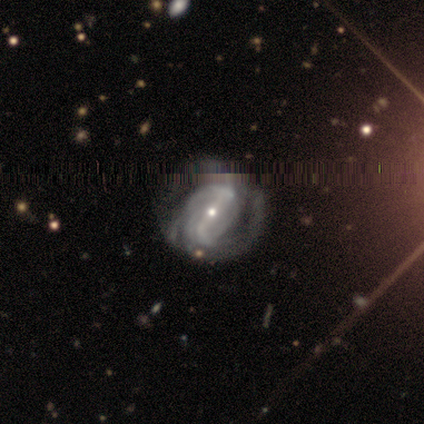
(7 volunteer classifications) Smooth or featured? 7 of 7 (100%) said featured or disk. Edge-on disk? 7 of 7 (100%) said no. Bar? 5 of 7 (71%) said strong. Spiral arms? 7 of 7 (100%) said yes. Spiral winding? 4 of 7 (57%) said tight. Spiral arm count? 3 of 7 (43%) said 3. Bulge size? 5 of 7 (71%) said small. Merging? 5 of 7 (71%) said none.